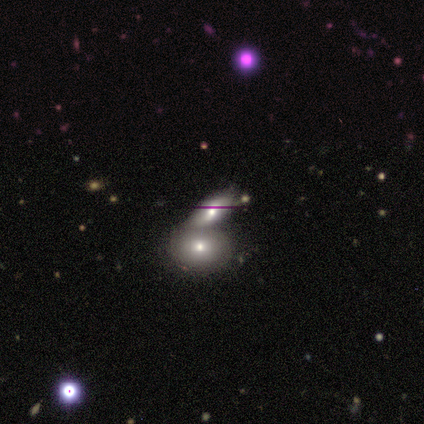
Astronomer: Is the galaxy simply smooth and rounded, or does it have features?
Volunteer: smooth — 67%.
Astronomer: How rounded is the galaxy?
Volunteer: in between — 100%.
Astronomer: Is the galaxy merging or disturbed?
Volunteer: merger — 80%.